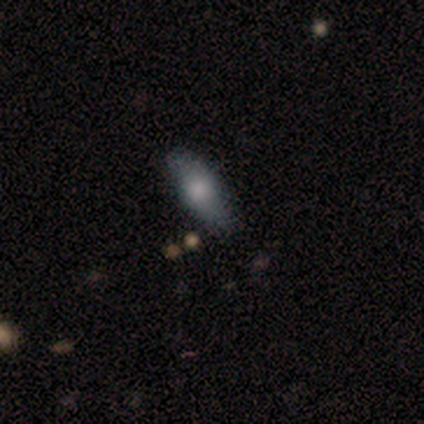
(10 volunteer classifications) A smooth galaxy with no disk features (50%, tied with featured or disk) that is in between round and cigar-shaped (80%).

Vote fractions:
- Smooth or featured? smooth: 50% (tied) / featured or disk: 50% (tied) / star or artifact: 0%
- How rounded? in between: 80% / round: 20% / cigar-shaped: 0%
- Merging? none: 70% / minor disturbance: 30% / major disturbance: 0% / merger: 0%